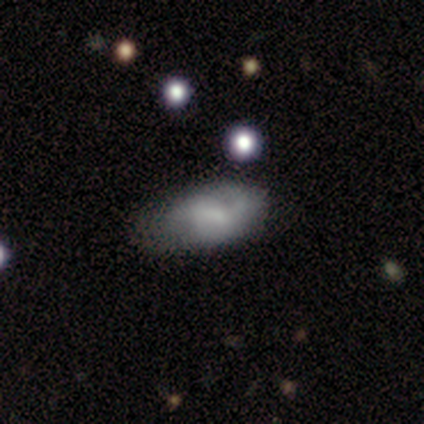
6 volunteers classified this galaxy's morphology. smooth-or-featured: smooth: 67% | featured or disk: 33% | star or artifact: 0%
  how-rounded: in between: 100% | round: 0% | cigar-shaped: 0%
  merging: none: 83% | minor disturbance: 17% | major disturbance: 0% | merger: 0%